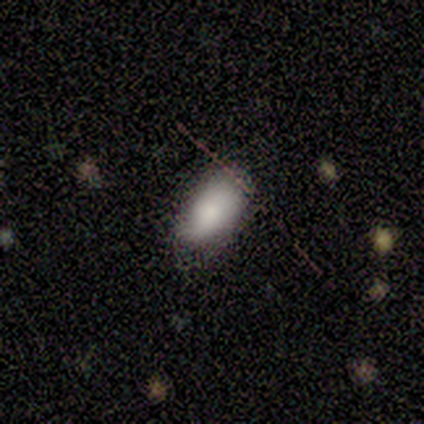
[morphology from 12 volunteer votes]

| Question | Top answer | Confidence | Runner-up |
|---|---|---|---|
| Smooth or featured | smooth | 92% | featured or disk (8%) |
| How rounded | in between | 91% | cigar-shaped (9%) |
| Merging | none | 67% | minor disturbance (25%) |